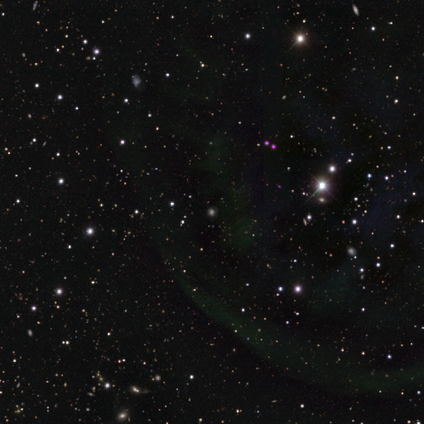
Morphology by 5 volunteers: Q: Smooth or featured?
A: star or artifact (60%); runner-up: featured or disk (40%)